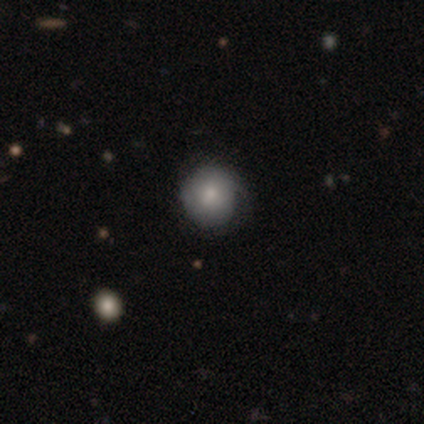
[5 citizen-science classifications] Smooth or featured? smooth (40%, tied with star or artifact)
How rounded? round (100%)
Merging? none (67%)